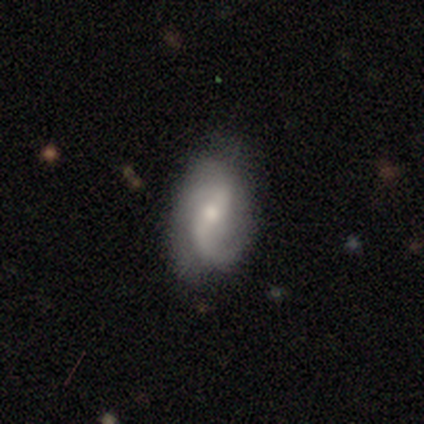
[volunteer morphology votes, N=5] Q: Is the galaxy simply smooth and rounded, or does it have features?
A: featured or disk — 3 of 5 (60%).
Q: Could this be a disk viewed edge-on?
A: no — 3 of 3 (100%).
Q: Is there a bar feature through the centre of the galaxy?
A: strong — 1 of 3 (33%, tied with weak and no).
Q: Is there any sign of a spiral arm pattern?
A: yes — 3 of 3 (100%).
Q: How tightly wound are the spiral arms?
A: loose — 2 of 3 (67%).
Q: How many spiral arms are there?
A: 2 — 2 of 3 (67%).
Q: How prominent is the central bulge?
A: moderate — 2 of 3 (67%).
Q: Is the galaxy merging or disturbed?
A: none — 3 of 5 (60%).